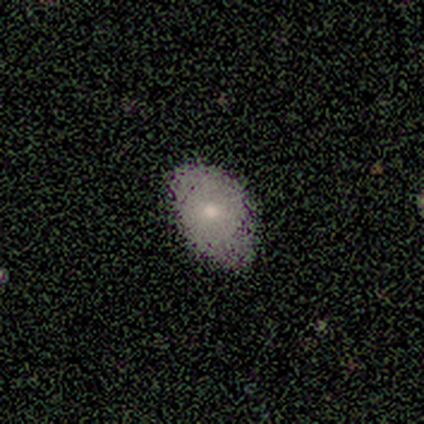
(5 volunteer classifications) smooth-or-featured: smooth: 100% | featured or disk: 0% | star or artifact: 0%
  how-rounded: in between: 100% | round: 0% | cigar-shaped: 0%
  merging: none: 60% | minor disturbance: 40% | major disturbance: 0% | merger: 0%